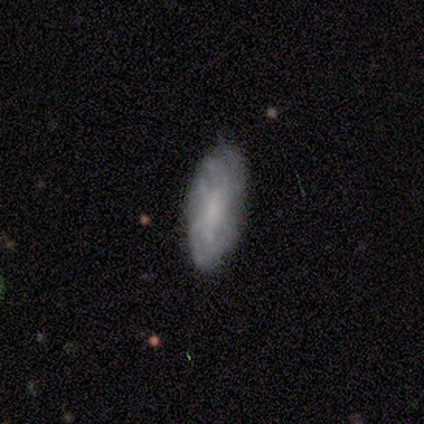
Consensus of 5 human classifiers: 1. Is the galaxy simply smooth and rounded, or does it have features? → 60% featured or disk, 40% smooth, 0% star or artifact.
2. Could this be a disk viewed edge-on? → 100% no, 0% yes.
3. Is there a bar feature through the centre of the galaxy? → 67% weak, 33% strong, 0% no.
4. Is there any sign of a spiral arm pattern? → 100% yes, 0% no.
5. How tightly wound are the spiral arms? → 67% tight, 33% loose, 0% medium.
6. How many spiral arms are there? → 33% 4 (tied), 33% more than 4 (tied), 33% can't tell (tied), 0% 1, 0% 2, 0% 3.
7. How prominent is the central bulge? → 33% large (tied), 33% moderate (tied), 33% small (tied), 0% dominant, 0% none.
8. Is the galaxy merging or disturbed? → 60% none, 40% minor disturbance, 0% major disturbance, 0% merger.